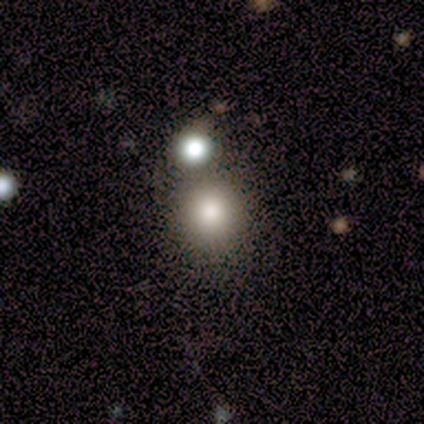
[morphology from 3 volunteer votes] smooth-or-featured: smooth: 100% | featured or disk: 0% | star or artifact: 0%
  how-rounded: round: 67% | in between: 33% | cigar-shaped: 0%
  merging: none: 67% | merger: 33% | minor disturbance: 0% | major disturbance: 0%